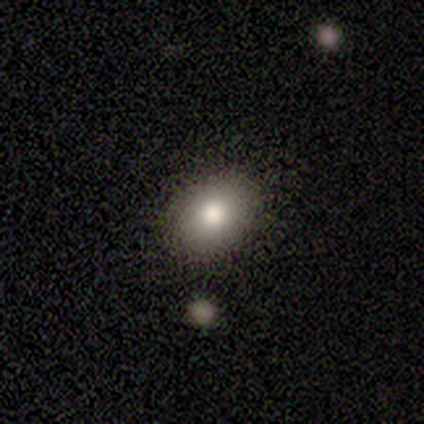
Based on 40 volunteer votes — This appears to be a smooth galaxy with no disk features (65%) that is in between round and cigar-shaped (54%). Merging: none (91%).